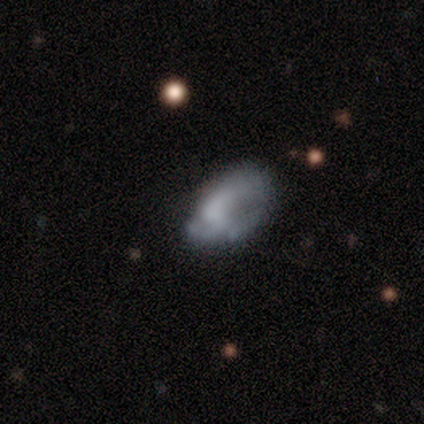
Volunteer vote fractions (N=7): This is marginally a smooth galaxy (43%). How rounded: clearly in between (100%). Merging: marginally major disturbance (40%).